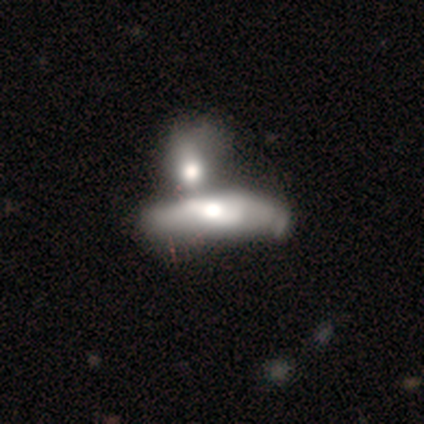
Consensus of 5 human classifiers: Overall: smooth (80%). How rounded: in between (100%). Merging: merger (100%).